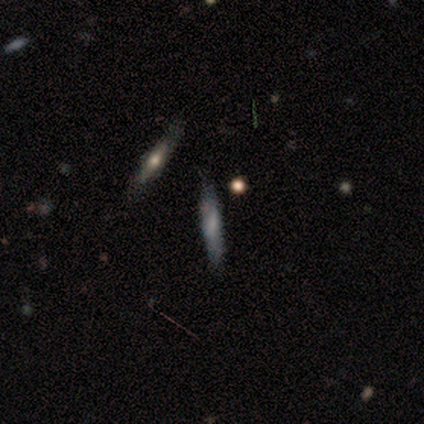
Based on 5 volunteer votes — Q: Smooth or featured?
A: featured or disk (60%); runner-up: smooth (40%)
Q: Edge-on disk?
A: yes (100%)
Q: Edge-on bulge?
A: boxy (33%); tied with: none (33%); rounded (33%)
Q: Merging?
A: none (80%); runner-up: merger (20%)